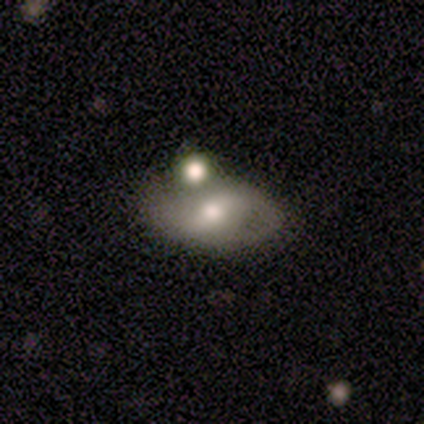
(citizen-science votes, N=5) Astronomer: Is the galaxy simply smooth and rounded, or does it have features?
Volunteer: featured or disk — 100%.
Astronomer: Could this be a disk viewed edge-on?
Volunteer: no — 100%.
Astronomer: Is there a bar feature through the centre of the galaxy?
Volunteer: weak — 60% (runner-up: no, 40%).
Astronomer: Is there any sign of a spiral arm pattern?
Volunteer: yes — 60% (runner-up: no, 40%).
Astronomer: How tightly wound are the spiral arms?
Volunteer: loose — 67%.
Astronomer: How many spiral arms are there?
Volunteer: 2 — 100%.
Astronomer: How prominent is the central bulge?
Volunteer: moderate — 100%.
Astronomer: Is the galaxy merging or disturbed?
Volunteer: none — 60%.